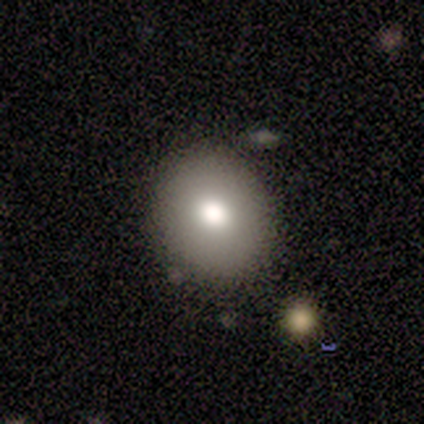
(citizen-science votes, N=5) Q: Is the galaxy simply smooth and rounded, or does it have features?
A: smooth — 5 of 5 (100%).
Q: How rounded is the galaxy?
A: round — 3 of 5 (60%).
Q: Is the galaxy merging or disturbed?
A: none — 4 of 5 (80%).